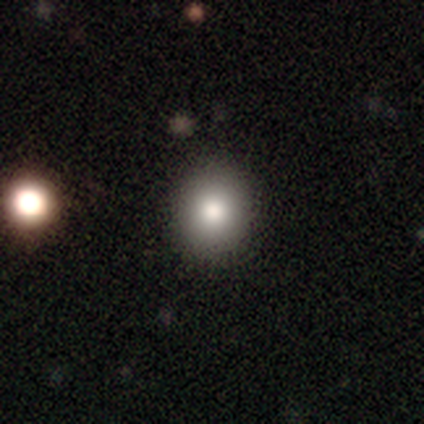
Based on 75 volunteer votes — Smooth or featured?
  - smooth: 79% *
  - star or artifact: 16%
  - featured or disk: 5%
How rounded?
  - round: 76% *
  - in between: 24%
  - cigar-shaped: 0%
Merging?
  - none: 54% *
  - minor disturbance: 6%
  - merger: 3%
  - major disturbance: 0%